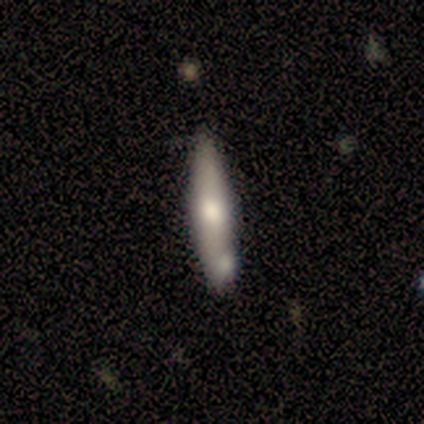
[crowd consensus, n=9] A featured or disk galaxy (56%) viewed edge-on (60%) with a rounded central bulge (100%). Merging: none (67%).